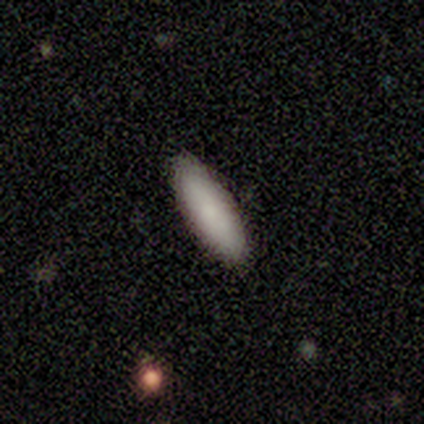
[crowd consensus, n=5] Smooth or featured: smooth — 100%
How rounded: cigar-shaped — 80% (in between — 20%)
Merging: none — 100%